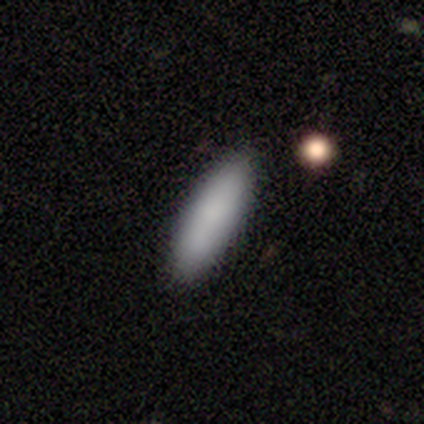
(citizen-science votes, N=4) This is clearly a smooth galaxy (100%). How rounded: likely cigar-shaped (75%). Merging: clearly none (100%).